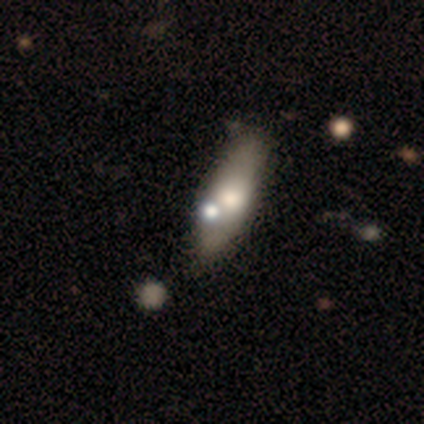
smooth_or_featured: smooth (p=0.60) [alt: featured or disk p=0.20]
how_rounded: in between (p=0.67) [alt: cigar-shaped p=0.33]
merging: none (p=0.50) [alt: minor disturbance p=0.25]